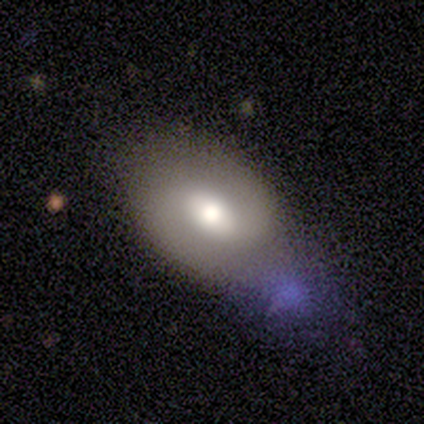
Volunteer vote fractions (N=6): Smooth or featured? 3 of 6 (50%) said smooth. How rounded? 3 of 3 (100%) said in between. Merging? 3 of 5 (60%) said none.